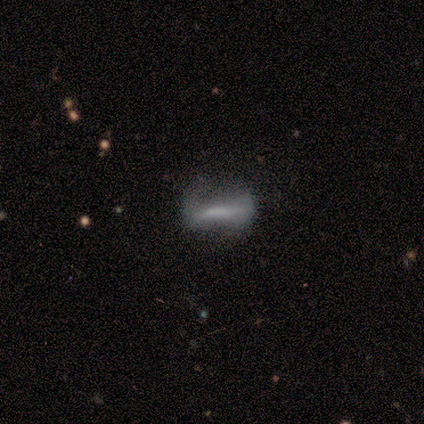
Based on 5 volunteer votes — smooth_or_featured: smooth (p=0.40) [tied with: featured or disk p=0.40]
how_rounded: in between (p=0.50) [tied with: cigar-shaped p=0.50]
merging: none (p=0.75) [alt: major disturbance p=0.25]